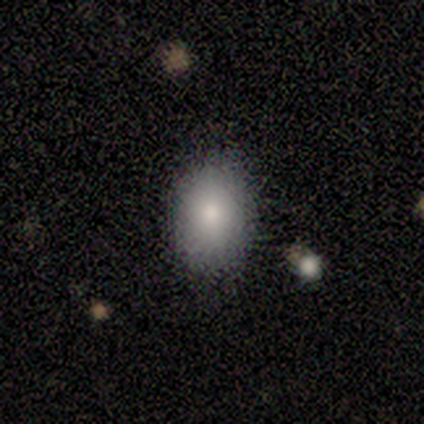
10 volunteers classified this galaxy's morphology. This is clearly a smooth galaxy (90%). How rounded: likely in between (78%). Merging: clearly none (100%).